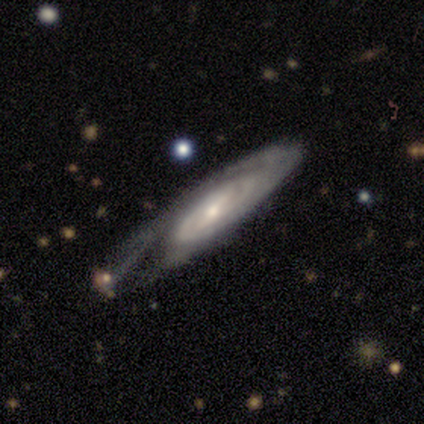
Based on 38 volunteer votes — A featured or disk galaxy (89%) with a weak bar (41%), tight (65%) spiral arms (96%) and a small central bulge (59%). Merging: none (53%).